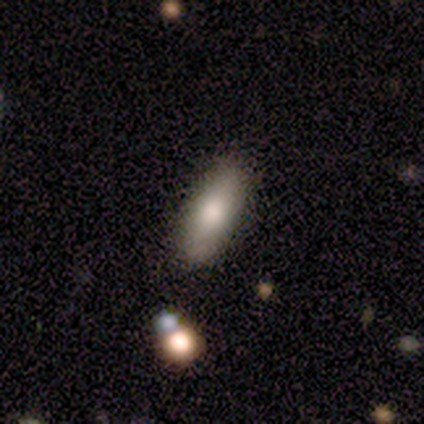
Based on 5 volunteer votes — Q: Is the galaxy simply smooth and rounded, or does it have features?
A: smooth — 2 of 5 (40%, tied with featured or disk).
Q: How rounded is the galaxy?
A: in between — 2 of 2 (100%).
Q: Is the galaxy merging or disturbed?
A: none — 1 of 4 (25%, tied with minor disturbance, major disturbance and merger).